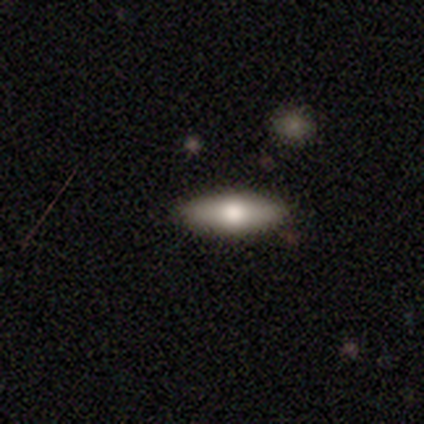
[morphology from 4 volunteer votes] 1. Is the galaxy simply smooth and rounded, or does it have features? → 75% smooth, 25% featured or disk, 0% star or artifact.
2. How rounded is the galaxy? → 67% in between, 33% cigar-shaped, 0% round.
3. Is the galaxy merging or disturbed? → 100% none, 0% minor disturbance, 0% major disturbance, 0% merger.